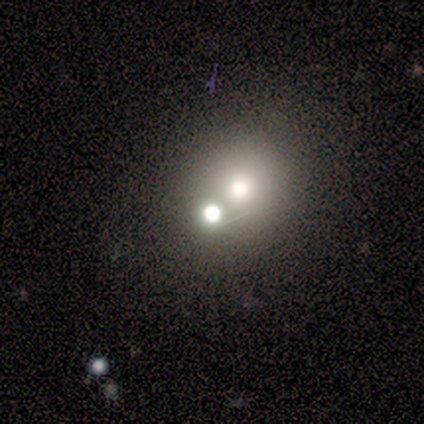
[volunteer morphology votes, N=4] Smooth or featured: smooth — 50% (tied with star or artifact — 50%)
How rounded: round — 50% (tied with in between — 50%)
Merging: merger — 100%